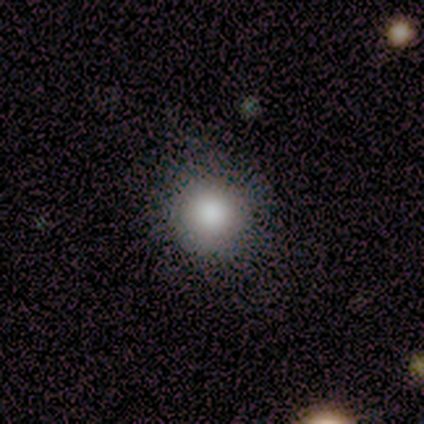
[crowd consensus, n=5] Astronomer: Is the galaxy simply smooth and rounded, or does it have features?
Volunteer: smooth — 100%.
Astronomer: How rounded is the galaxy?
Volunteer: round — 100%.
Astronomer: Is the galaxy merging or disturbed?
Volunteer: none — 80%.